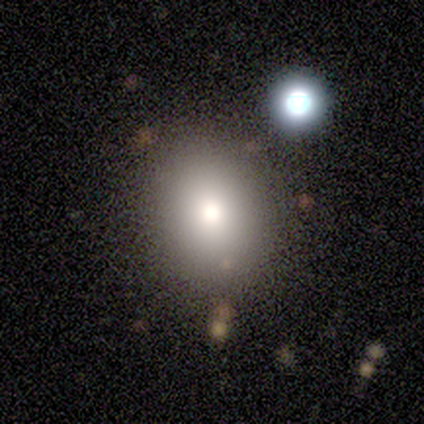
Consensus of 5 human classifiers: Smooth or featured? smooth (100%)
How rounded? in between (60%)
Merging? none (100%)